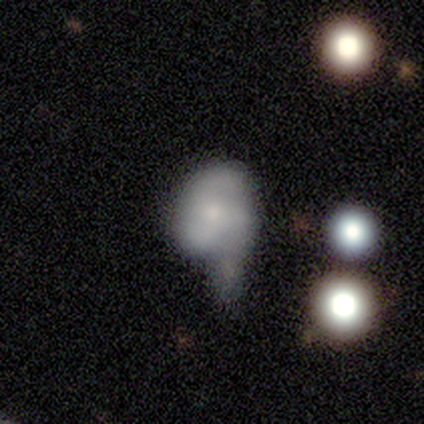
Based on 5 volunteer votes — Smooth or featured?
  - featured or disk: 40% * (tied)
  - star or artifact: 40% * (tied)
  - smooth: 20%
Edge-on disk?
  - no: 100% *
  - yes: 0%
Bar?
  - no: 100% *
  - strong: 0%
  - weak: 0%
Spiral arms?
  - yes: 100% *
  - no: 0%
Spiral winding?
  - tight: 50% * (tied)
  - loose: 50% * (tied)
  - medium: 0%
Spiral arm count?
  - 1: 50% * (tied)
  - 2: 50% * (tied)
  - 3: 0%
  - 4: 0%
  - more than 4: 0%
  - can't tell: 0%
Bulge size?
  - small: 50% * (tied)
  - none: 50% * (tied)
  - dominant: 0%
  - large: 0%
  - moderate: 0%
Merging?
  - merger: 67% *
  - minor disturbance: 33%
  - none: 0%
  - major disturbance: 0%